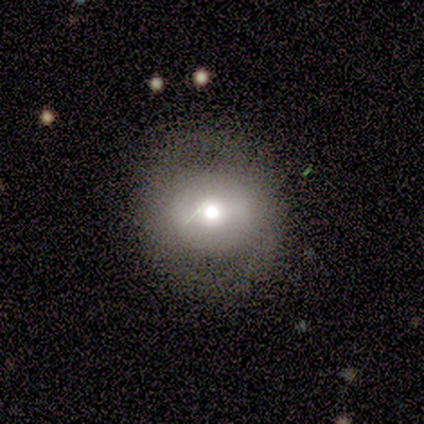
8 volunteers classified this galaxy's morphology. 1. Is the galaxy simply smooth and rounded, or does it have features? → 62% smooth, 25% featured or disk, 12% star or artifact.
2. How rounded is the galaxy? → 100% round, 0% in between, 0% cigar-shaped.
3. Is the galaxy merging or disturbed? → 86% none, 14% major disturbance, 0% minor disturbance, 0% merger.